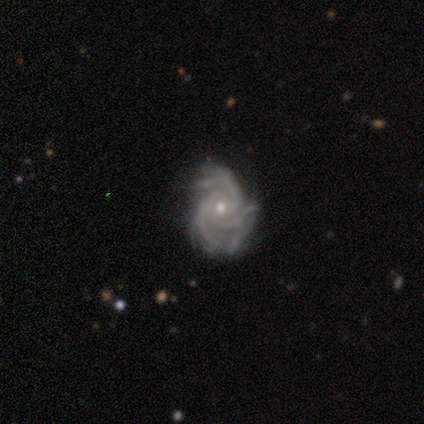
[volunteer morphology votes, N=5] Smooth or featured? 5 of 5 (100%) said featured or disk. Edge-on disk? 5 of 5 (100%) said no. Bar? 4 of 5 (80%) said no. Spiral arms? 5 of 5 (100%) said yes. Spiral winding? 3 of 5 (60%) said tight. Spiral arm count? 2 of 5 (40%, tied with can't tell) said 3. Bulge size? 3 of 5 (60%) said moderate. Merging? 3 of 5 (60%) said none.